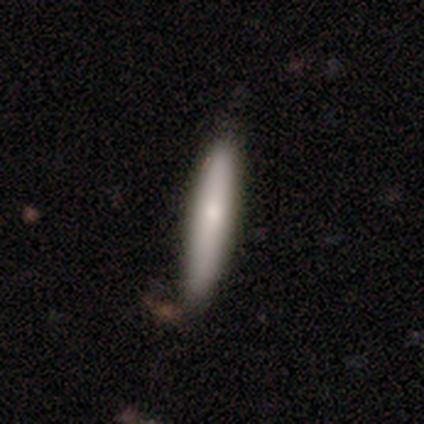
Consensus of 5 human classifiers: Overall: smooth (80%). How rounded: cigar-shaped (100%). Merging: none (80%).